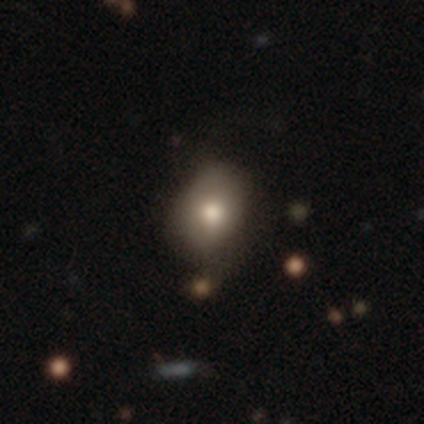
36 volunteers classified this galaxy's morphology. A smooth galaxy with no disk features (75%) that is in between round and cigar-shaped (52%).

Vote fractions:
- Smooth or featured? smooth: 75% / featured or disk: 19% / star or artifact: 6%
- How rounded? in between: 52% / round: 44% / cigar-shaped: 4%
- Merging? none: 53% / minor disturbance: 32% / major disturbance: 9% / merger: 6%